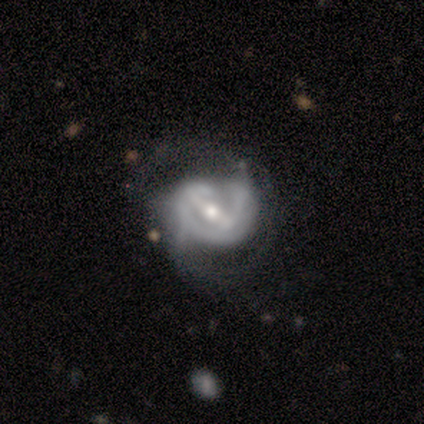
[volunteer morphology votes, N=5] Smooth or featured? 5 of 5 (100%) said featured or disk. Edge-on disk? 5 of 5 (100%) said no. Bar? 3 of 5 (60%) said strong. Spiral arms? 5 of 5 (100%) said yes. Spiral winding? 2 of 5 (40%, tied with loose) said medium. Spiral arm count? 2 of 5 (40%, tied with can't tell) said 2. Bulge size? 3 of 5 (60%) said small. Merging? 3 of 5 (60%) said minor disturbance.